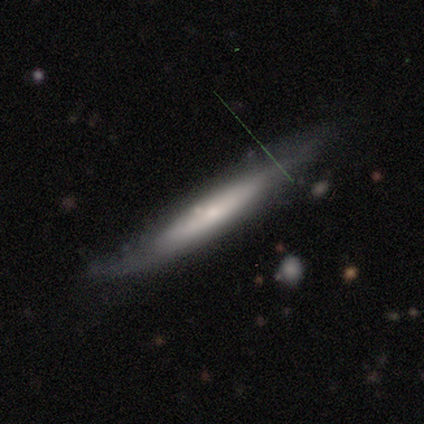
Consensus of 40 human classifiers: Morphology: type=featured or disk (65%); edge-on=yes (69%); edge-on bulge=none (50%); merging=none (67%).